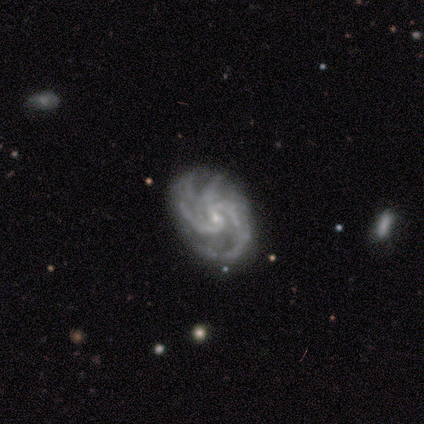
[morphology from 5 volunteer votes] Smooth or featured: featured or disk — 100%
Edge-on disk: no — 100%
Bar: no — 80% (strong — 20%)
Spiral arms: yes — 100%
Spiral winding: medium — 80% (tight — 20%)
Spiral arm count: 3 — 80% (4 — 20%)
Bulge size: small — 60% (large — 20%)
Merging: none — 100%